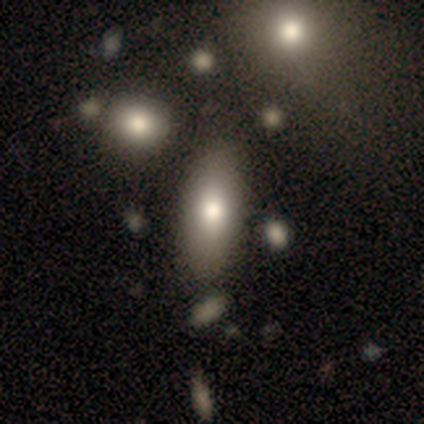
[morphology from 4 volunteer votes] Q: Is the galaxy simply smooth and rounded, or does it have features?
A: smooth — 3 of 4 (75%).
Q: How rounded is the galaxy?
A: in between — 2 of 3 (67%).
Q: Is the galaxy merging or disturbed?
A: minor disturbance — 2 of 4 (50%).